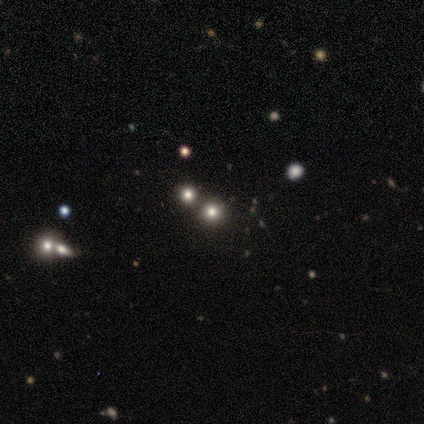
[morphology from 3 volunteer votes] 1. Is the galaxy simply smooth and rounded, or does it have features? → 67% smooth, 33% star or artifact, 0% featured or disk.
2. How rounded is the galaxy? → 100% round, 0% in between, 0% cigar-shaped.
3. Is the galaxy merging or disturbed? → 50% none (tied), 50% merger (tied), 0% minor disturbance, 0% major disturbance.